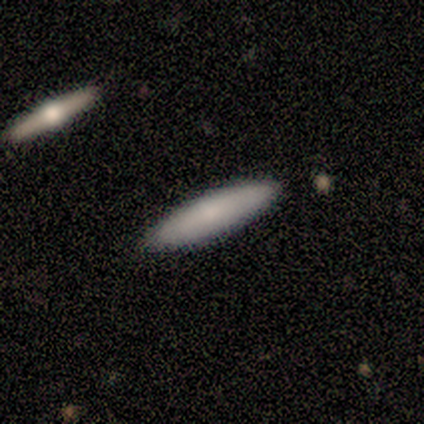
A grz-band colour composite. It shows a smooth galaxy with no disk features (60%) that is cigar-shaped (67%). Merging: none (80%).